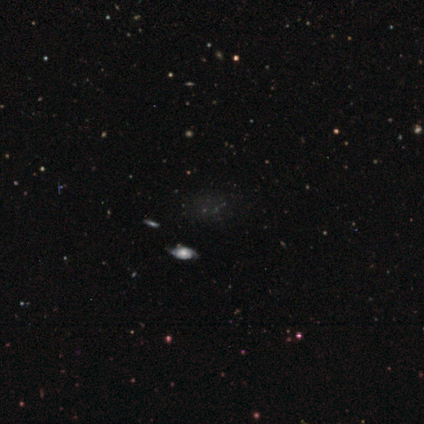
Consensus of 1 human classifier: Overall: smooth (100%). How rounded: round (100%). Merging: none (100%).